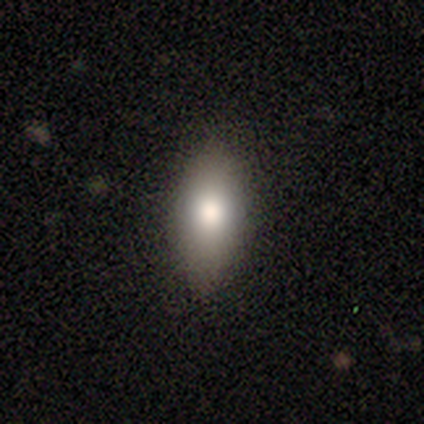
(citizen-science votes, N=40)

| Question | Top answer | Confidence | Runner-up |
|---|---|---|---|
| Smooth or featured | smooth | 82% | star or artifact (10%) |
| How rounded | in between | 73% | cigar-shaped (24%) |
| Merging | none | 86% | minor disturbance (11%) |